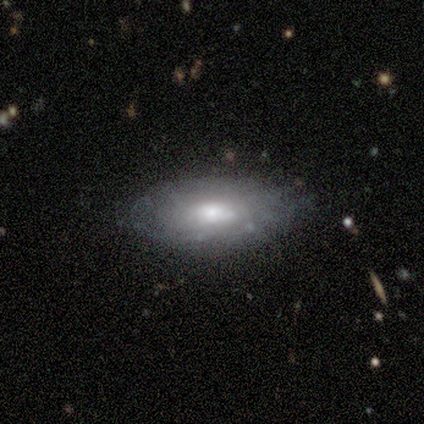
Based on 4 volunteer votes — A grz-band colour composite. It shows a featured or disk galaxy (50%) with a weak bar (50%, tied with no), tight (50%, tied with loose) spiral arms (100%) and a moderate central bulge (50%, tied with small). Merging: none (67%).